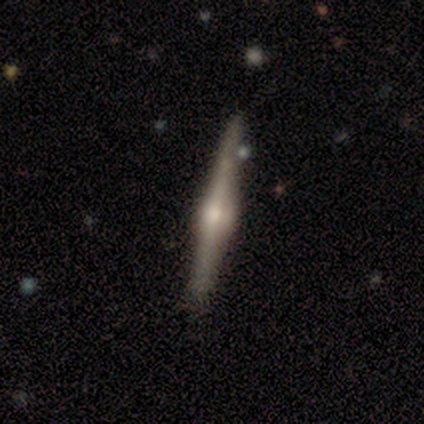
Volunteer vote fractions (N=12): This is clearly a featured or disk galaxy (83%). It is clearly viewed edge-on (100%). Edge-on bulge: clearly rounded (100%). Merging: clearly none (100%).